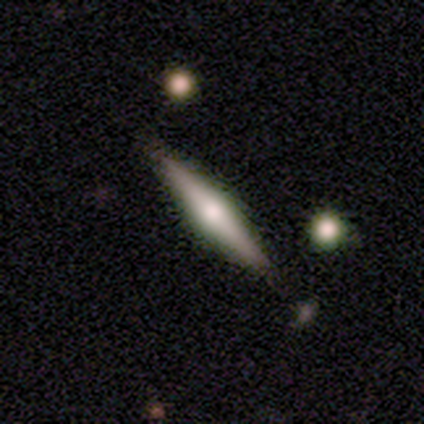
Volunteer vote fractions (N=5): Smooth or featured? featured or disk (60%)
Edge-on disk? yes (100%)
Edge-on bulge? rounded (67%)
Merging? none (60%)